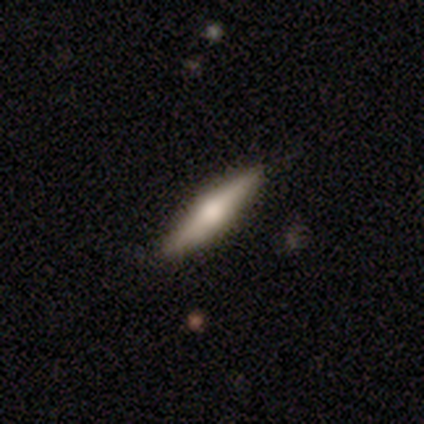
A featured or disk galaxy (80%) viewed edge-on (100%) with a rounded central bulge (100%).

Vote fractions:
- Smooth or featured? featured or disk: 80% / smooth: 20% / star or artifact: 0%
- Edge-on disk? yes: 100% / no: 0%
- Edge-on bulge? rounded: 100% / boxy: 0% / none: 0%
- Merging? none: 100% / minor disturbance: 0% / major disturbance: 0% / merger: 0%